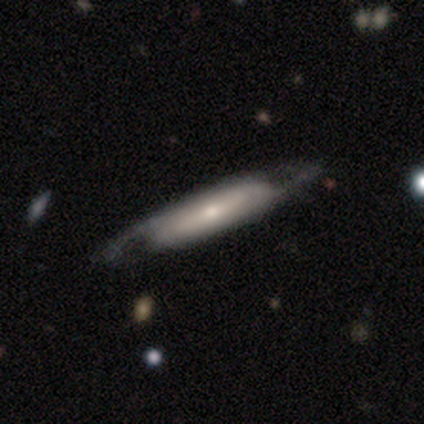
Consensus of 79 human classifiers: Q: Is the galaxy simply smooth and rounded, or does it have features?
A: featured or disk — 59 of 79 (75%).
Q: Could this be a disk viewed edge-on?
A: no — 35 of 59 (59%).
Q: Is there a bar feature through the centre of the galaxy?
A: no — 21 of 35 (60%).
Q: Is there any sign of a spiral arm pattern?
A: yes — 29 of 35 (83%).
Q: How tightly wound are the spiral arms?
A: medium — 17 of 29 (59%).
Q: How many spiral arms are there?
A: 2 — 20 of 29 (69%).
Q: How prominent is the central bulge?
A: small — 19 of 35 (54%).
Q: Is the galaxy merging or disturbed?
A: none — 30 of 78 (38%).